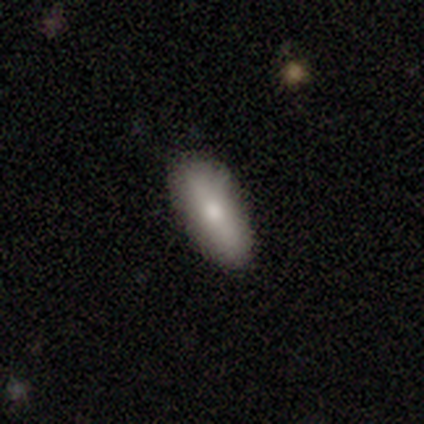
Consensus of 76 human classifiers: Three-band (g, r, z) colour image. It shows a smooth galaxy with no disk features (86%) that is in between round and cigar-shaped (85%). Merging: none (43%).